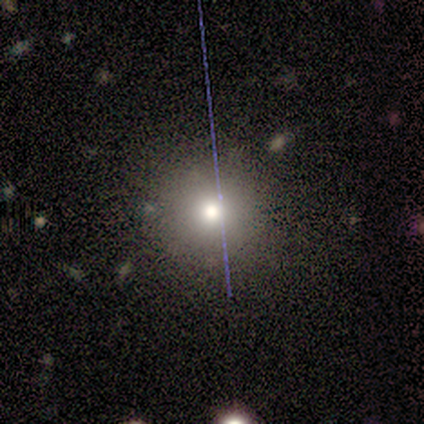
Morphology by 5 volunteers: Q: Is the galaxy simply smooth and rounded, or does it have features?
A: smooth — 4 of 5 (80%).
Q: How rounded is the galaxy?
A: round — 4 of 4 (100%).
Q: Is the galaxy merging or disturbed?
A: none — 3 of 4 (75%).